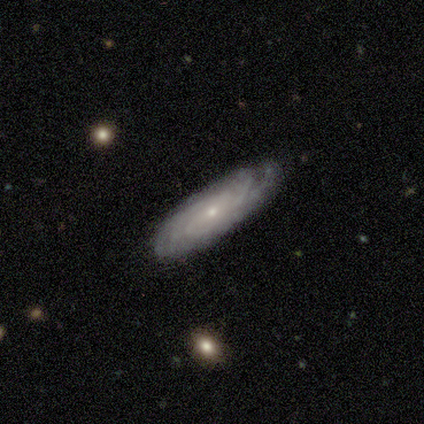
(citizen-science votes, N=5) Overall: featured or disk (100%). Edge-on disk: no (80%). Bar: no (100%). Spiral arms: yes (100%). Spiral arm count: can't tell (50%; 3 25%). Spiral winding: tight (75%). Bulge size: small (100%). Merging: minor disturbance (60%; none 40%).